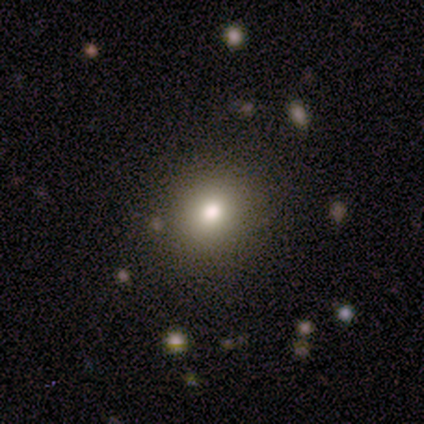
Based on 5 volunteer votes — Smooth or featured? 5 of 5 (100%) said smooth. How rounded? 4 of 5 (80%) said round. Merging? 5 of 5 (100%) said none.